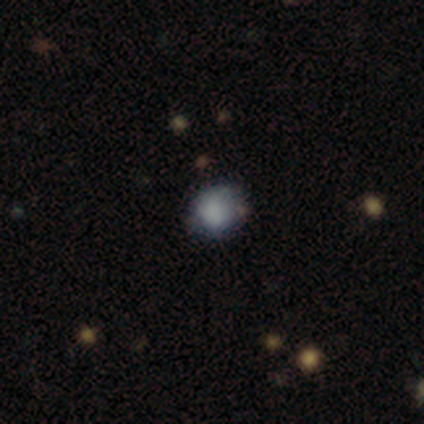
Overall: smooth (50%; featured or disk 25%). How rounded: round (100%). Merging: none (67%; major disturbance 33%).